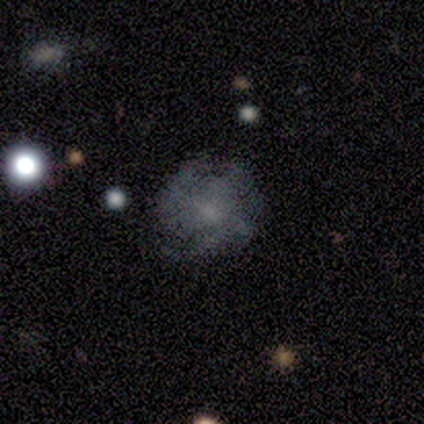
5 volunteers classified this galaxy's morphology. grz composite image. It shows a smooth galaxy with no disk features (40%, tied with star or artifact) that is round (100%). Merging: none (33%, tied with minor disturbance and major disturbance).